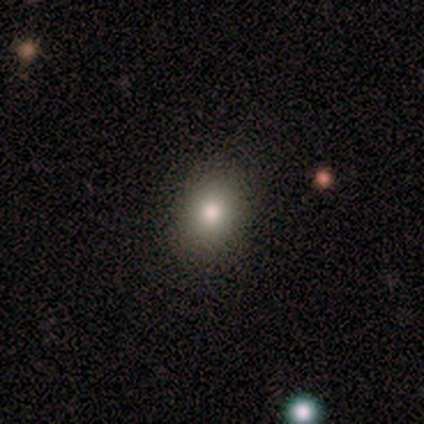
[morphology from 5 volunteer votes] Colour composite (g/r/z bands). It shows a smooth galaxy with no disk features (60%) that is in between round and cigar-shaped (67%). Merging: none (100%).